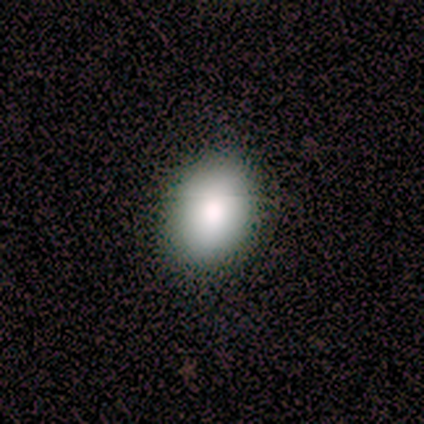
A smooth galaxy with no disk features (100%) that is in between round and cigar-shaped (100%).

Vote fractions:
- Smooth or featured? smooth: 100% / featured or disk: 0% / star or artifact: 0%
- How rounded? in between: 100% / round: 0% / cigar-shaped: 0%
- Merging? none: 67% / minor disturbance: 33% / major disturbance: 0% / merger: 0%